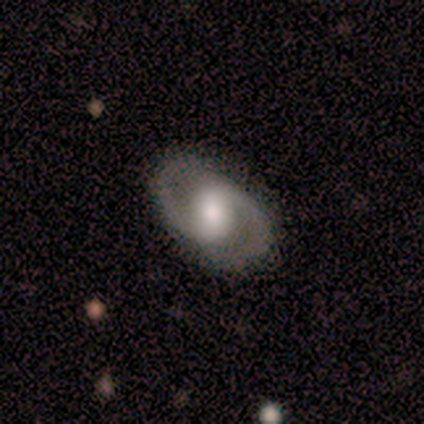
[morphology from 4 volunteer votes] Smooth or featured?
  - smooth: 50% * (tied)
  - featured or disk: 50% * (tied)
  - star or artifact: 0%
How rounded?
  - in between: 100% *
  - round: 0%
  - cigar-shaped: 0%
Merging?
  - none: 100% *
  - minor disturbance: 0%
  - major disturbance: 0%
  - merger: 0%